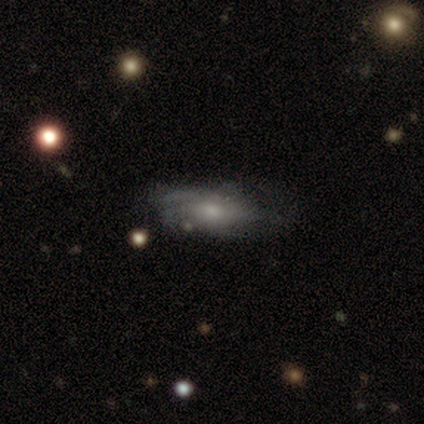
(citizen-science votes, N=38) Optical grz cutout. It shows a featured or disk galaxy (61%) with no bar (90%), tight (56%) spiral arms (76%) and a moderate central bulge (57%). Merging: none (57%).